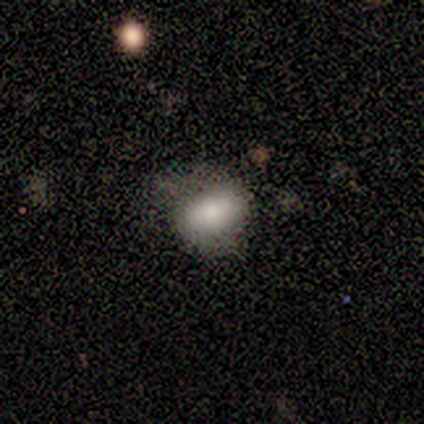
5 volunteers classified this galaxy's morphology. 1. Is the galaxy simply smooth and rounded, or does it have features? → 80% smooth, 20% featured or disk, 0% star or artifact.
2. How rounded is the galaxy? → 100% in between, 0% round, 0% cigar-shaped.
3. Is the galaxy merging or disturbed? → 80% none, 20% major disturbance, 0% minor disturbance, 0% merger.